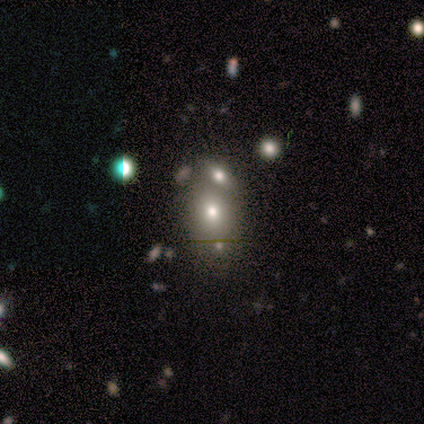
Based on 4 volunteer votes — Smooth or featured: featured or disk — 50% (smooth — 25%)
Edge-on disk: no — 100%
Bar: strong — 50% (tied with no — 50%)
Spiral arms: yes — 50% (tied with no — 50%)
Spiral winding: medium — 100%
Spiral arm count: 3 — 100%
Bulge size: large — 50% (tied with moderate — 50%)
Merging: none — 67% (merger — 33%)